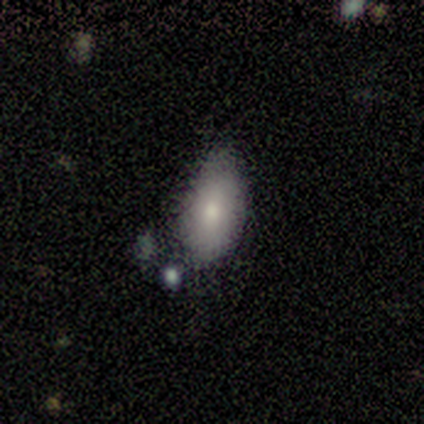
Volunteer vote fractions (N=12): Smooth or featured? 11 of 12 (92%) said smooth. How rounded? 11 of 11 (100%) said in between. Merging? 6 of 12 (50%, tied with minor disturbance) said none.